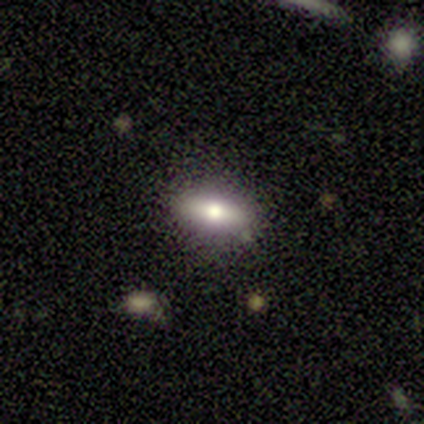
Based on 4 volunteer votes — smooth_or_featured: smooth (p=0.75) [alt: star or artifact p=0.25]
how_rounded: in between (p=1.00)
merging: minor disturbance (p=0.67) [alt: none p=0.33]